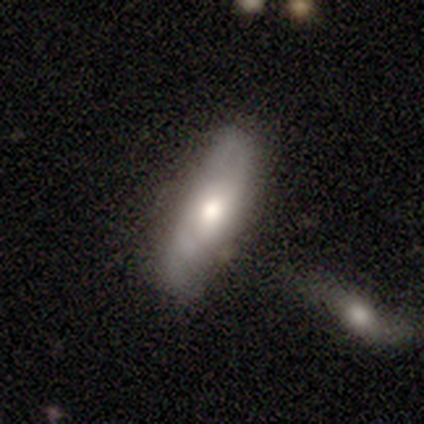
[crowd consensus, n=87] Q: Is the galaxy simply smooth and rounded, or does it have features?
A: smooth — 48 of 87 (55%).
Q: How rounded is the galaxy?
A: cigar-shaped — 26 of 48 (54%).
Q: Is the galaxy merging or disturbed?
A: none — 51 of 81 (63%).